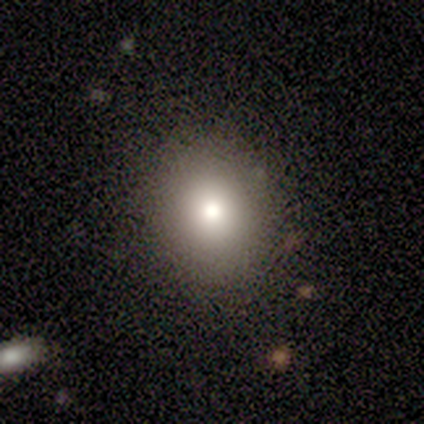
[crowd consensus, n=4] Smooth or featured? 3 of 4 (75%) said smooth. How rounded? 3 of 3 (100%) said round. Merging? 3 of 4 (75%) said none.